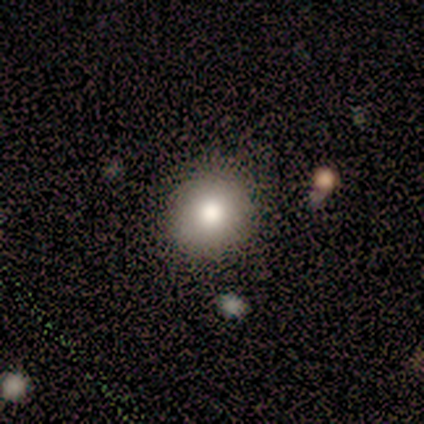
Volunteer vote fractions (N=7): Smooth or featured?
  - smooth: 57% *
  - star or artifact: 43%
  - featured or disk: 0%
How rounded?
  - round: 100% *
  - in between: 0%
  - cigar-shaped: 0%
Merging?
  - none: 100% *
  - minor disturbance: 0%
  - major disturbance: 0%
  - merger: 0%